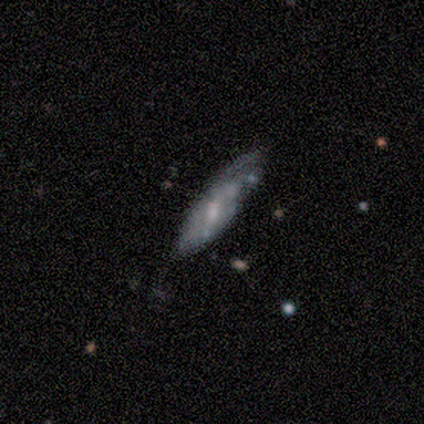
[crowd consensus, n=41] This is likely a featured or disk galaxy (61%). It is likely not viewed edge-on (76%). Bar: possibly no (58%). Spiral arm pattern: likely no (63%). Central bulge: possibly small (53%). Merging: possibly none (53%).